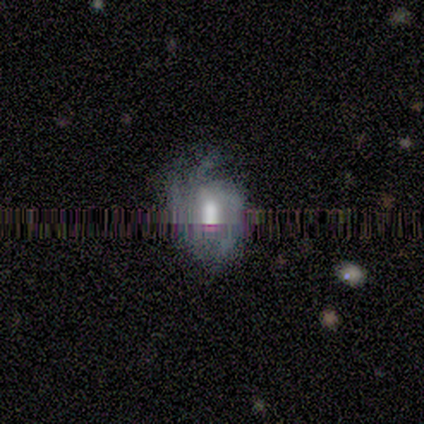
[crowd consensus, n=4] Smooth or featured? 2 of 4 (50%, tied with featured or disk) said smooth. How rounded? 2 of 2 (100%) said in between. Merging? 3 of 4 (75%) said none.